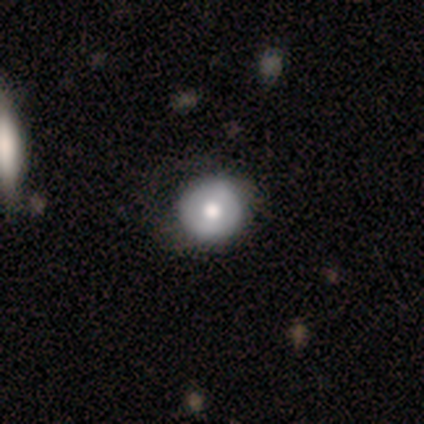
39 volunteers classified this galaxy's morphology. This appears to be a smooth galaxy with no disk features (54%) that is round (100%). Merging: none (51%).